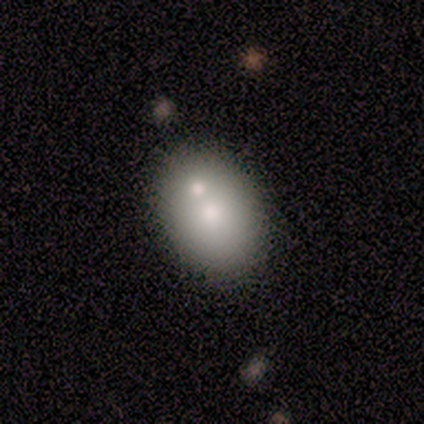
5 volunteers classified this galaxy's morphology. Smooth or featured?
  - smooth: 80% *
  - featured or disk: 20%
  - star or artifact: 0%
How rounded?
  - in between: 75% *
  - round: 25%
  - cigar-shaped: 0%
Merging?
  - merger: 60% *
  - none: 40%
  - minor disturbance: 0%
  - major disturbance: 0%